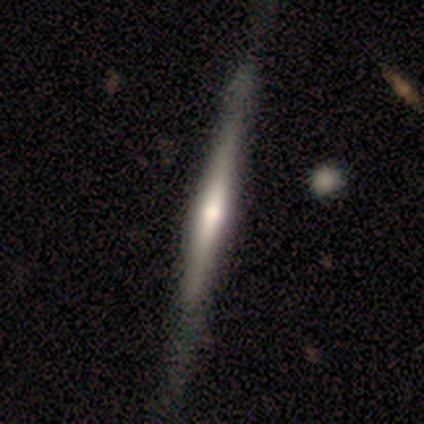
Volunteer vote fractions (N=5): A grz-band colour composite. It shows a featured or disk galaxy (60%) viewed edge-on (100%) with a rounded central bulge (100%). Merging: none (50%, tied with minor disturbance).